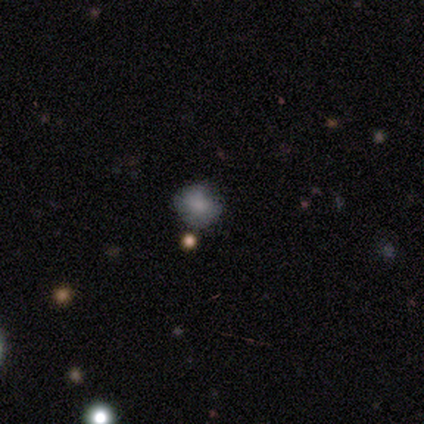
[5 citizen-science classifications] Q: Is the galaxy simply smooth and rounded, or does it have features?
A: smooth — 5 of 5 (100%).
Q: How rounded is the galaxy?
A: round — 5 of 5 (100%).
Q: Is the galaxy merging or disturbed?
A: none — 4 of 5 (80%).